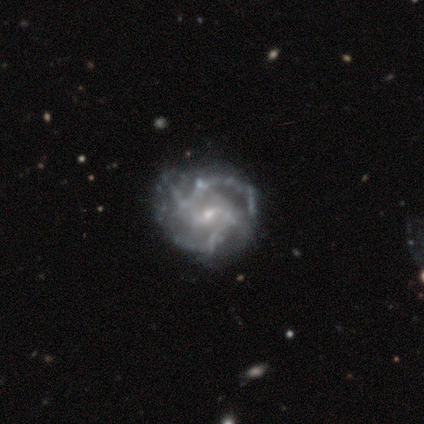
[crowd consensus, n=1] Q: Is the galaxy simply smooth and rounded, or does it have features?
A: featured or disk — 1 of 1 (100%).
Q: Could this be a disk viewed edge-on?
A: no — 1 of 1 (100%).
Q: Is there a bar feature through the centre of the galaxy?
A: weak — 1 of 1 (100%).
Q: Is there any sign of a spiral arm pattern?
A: yes — 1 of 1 (100%).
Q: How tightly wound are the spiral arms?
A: medium — 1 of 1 (100%).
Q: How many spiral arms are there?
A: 2 — 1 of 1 (100%).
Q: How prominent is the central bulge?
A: moderate — 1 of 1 (100%).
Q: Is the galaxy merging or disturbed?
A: minor disturbance — 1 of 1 (100%).